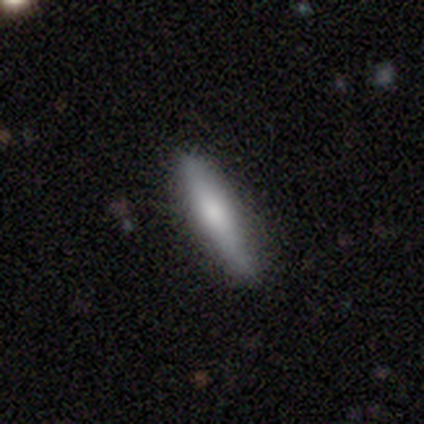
smooth_or_featured: smooth (p=0.65) [alt: featured or disk p=0.33]
how_rounded: cigar-shaped (p=1.00)
merging: none (p=0.85) [alt: minor disturbance p=0.10]